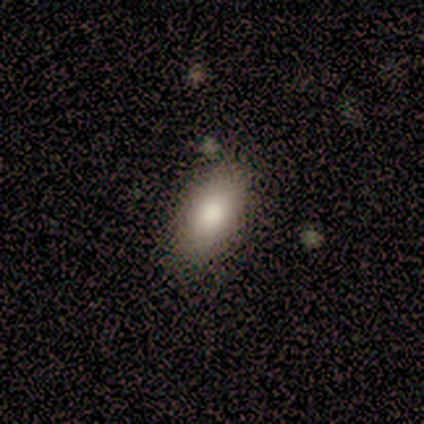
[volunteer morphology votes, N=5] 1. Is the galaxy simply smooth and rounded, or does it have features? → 80% smooth, 20% star or artifact, 0% featured or disk.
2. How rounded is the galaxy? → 100% in between, 0% round, 0% cigar-shaped.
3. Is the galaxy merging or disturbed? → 75% none, 25% minor disturbance, 0% major disturbance, 0% merger.